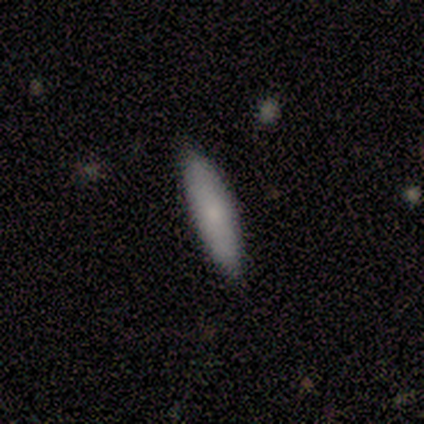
smooth-or-featured: smooth: 67% | featured or disk: 33% | star or artifact: 0%
  how-rounded: in between: 50% (tied) | cigar-shaped: 50% (tied) | round: 0%
  merging: none: 67% | minor disturbance: 33% | major disturbance: 0% | merger: 0%